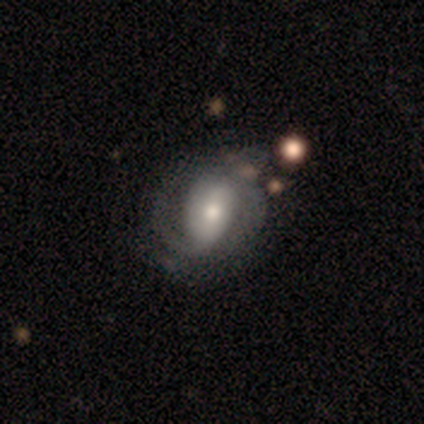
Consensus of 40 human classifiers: smooth-or-featured: featured or disk: 82% | smooth: 18% | star or artifact: 0%
  disk-edge-on: no: 97% | yes: 3%
    bar: no: 41% | weak: 38% | strong: 22%
    has-spiral-arms: yes: 88% | no: 12%
      spiral-winding: tight: 57% | medium: 29% | loose: 14%
      spiral-arm-count: 2: 64% | can't tell: 21% | 3: 7% | 1: 4% | 4: 4% | more than 4: 0%
    bulge-size: moderate: 66% | large: 16% | small: 16% | dominant: 3% | none: 0%
  merging: none: 45% | minor disturbance: 28% | major disturbance: 15% | merger: 5%